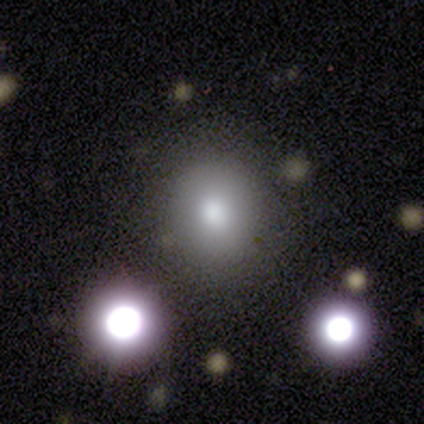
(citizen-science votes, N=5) Overall: smooth (60%; featured or disk 20%). How rounded: round (100%). Merging: none (100%).